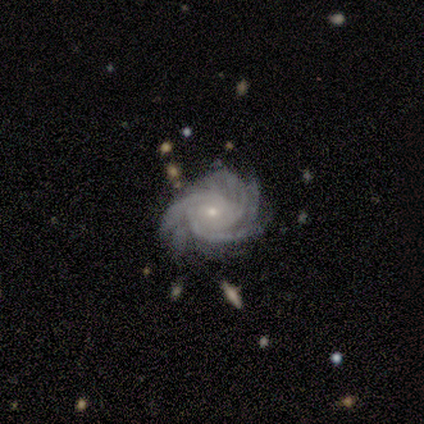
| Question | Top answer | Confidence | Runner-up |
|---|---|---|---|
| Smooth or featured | featured or disk | 100% | — |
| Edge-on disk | no | 100% | — |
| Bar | no | 75% | weak (25%) |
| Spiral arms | yes | 100% | — |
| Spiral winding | tight | 100% | — |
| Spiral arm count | more than 4 | 50% | 4 (25%) |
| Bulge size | moderate | 50% | tied: small (50%) |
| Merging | none | 100% | — |